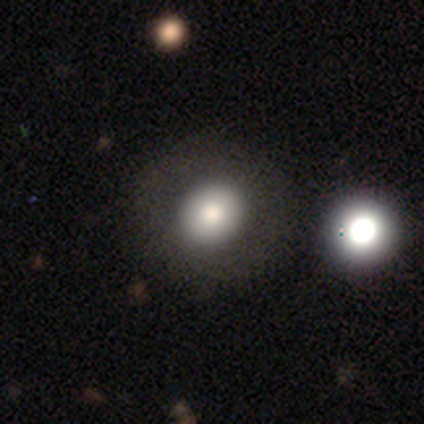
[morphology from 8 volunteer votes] type=smooth (75%); roundness=round (67%); merging=none (100%).